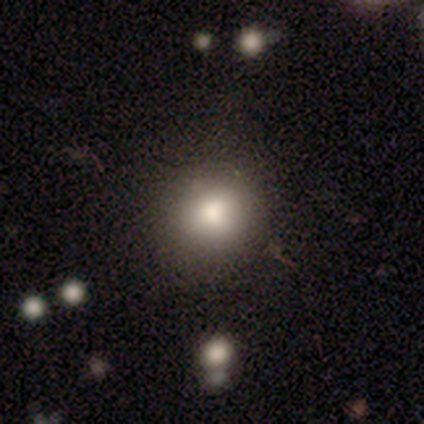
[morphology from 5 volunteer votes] smooth_or_featured: smooth (p=0.80) [alt: star or artifact p=0.20]
how_rounded: round (p=1.00)
merging: none (p=0.50) [alt: major disturbance p=0.25]